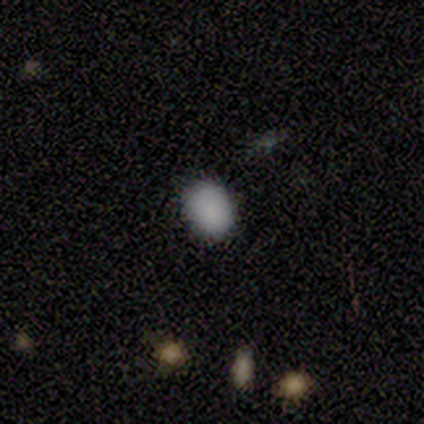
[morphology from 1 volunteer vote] Smooth or featured?
  - smooth: 100% *
  - featured or disk: 0%
  - star or artifact: 0%
How rounded?
  - round: 100% *
  - in between: 0%
  - cigar-shaped: 0%
Merging?
  - none: 100% *
  - minor disturbance: 0%
  - major disturbance: 0%
  - merger: 0%